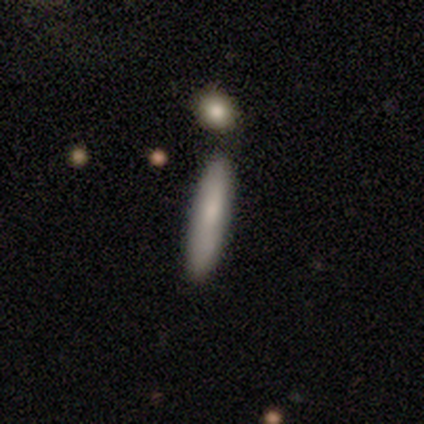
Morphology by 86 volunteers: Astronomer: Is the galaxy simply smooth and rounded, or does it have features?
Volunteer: smooth — 70%.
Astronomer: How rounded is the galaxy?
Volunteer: cigar-shaped — 92%.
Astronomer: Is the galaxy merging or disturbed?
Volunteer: none — 79%.